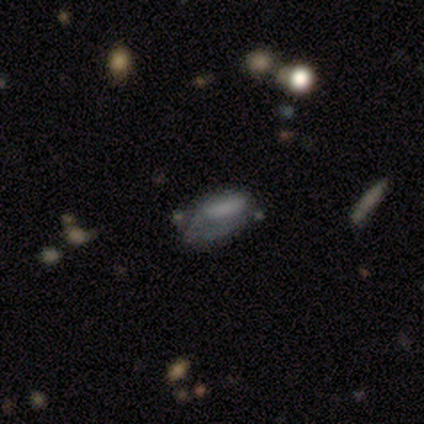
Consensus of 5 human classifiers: A smooth galaxy with no disk features (60%) that is in between round and cigar-shaped (100%).

Vote fractions:
- Smooth or featured? smooth: 60% / featured or disk: 20% / star or artifact: 20%
- How rounded? in between: 100% / round: 0% / cigar-shaped: 0%
- Merging? none: 50% (tied) / major disturbance: 50% (tied) / minor disturbance: 0% / merger: 0%